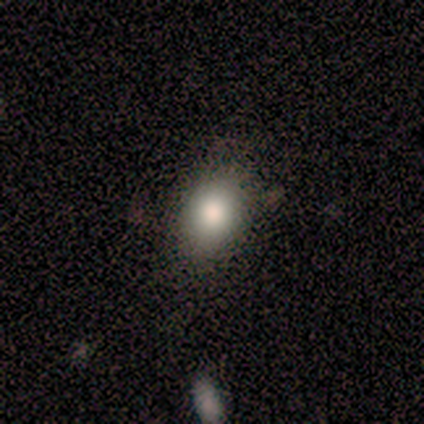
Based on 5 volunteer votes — Overall: smooth (60%; featured or disk 20%). How rounded: in between (100%). Merging: none (100%).